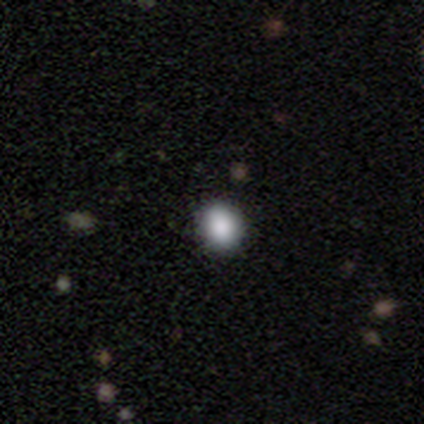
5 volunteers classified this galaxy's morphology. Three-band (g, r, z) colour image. It shows a smooth galaxy with no disk features (100%) that is round (100%). Merging: none (100%).